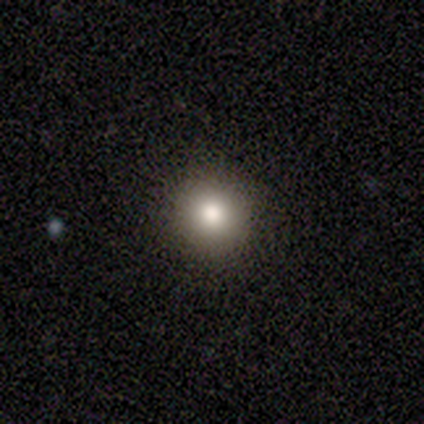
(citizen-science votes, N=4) Smooth or featured? smooth (75%)
How rounded? round (100%)
Merging? none (100%)